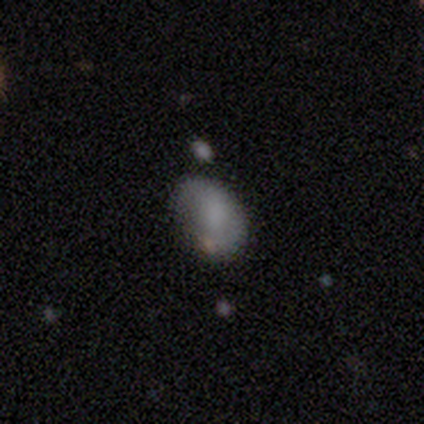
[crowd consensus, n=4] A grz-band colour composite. It shows a smooth galaxy with no disk features (50%) that is in between round and cigar-shaped (100%). Merging: none (67%).